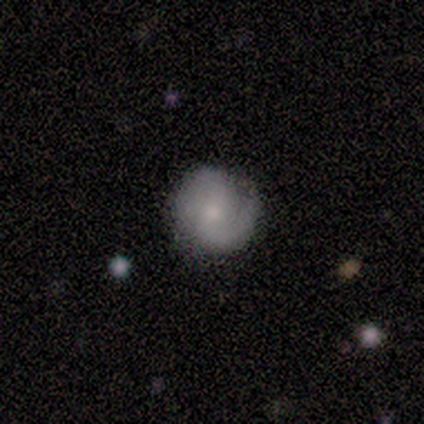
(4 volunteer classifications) Morphology: type=featured or disk (75%); edge-on=no (100%); bar=weak (67%); spiral arms=yes (100%); winding=medium (67%); arm count=1 (67%); bulge=moderate (33%, tied with small and none); merging=minor disturbance (67%).